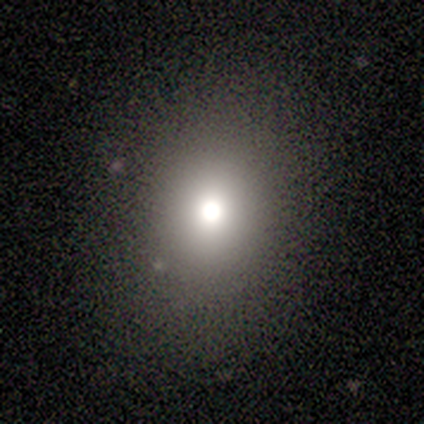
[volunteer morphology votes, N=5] Q: Smooth or featured?
A: smooth (60%); runner-up: star or artifact (40%)
Q: How rounded?
A: round (67%); runner-up: in between (33%)
Q: Merging?
A: none (100%)